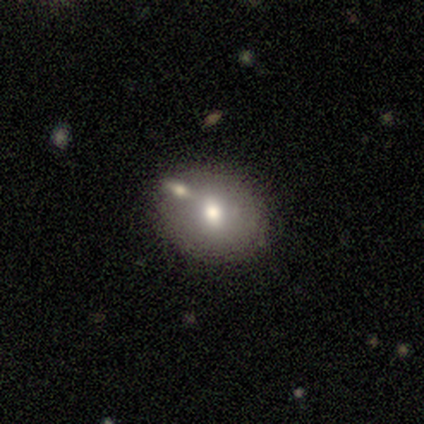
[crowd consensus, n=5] Morphology: type=smooth (60%); roundness=round (100%); merging=merger (60%).